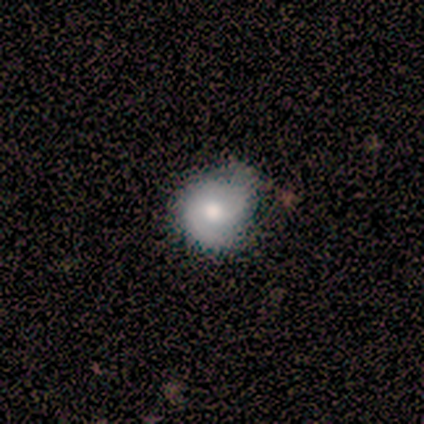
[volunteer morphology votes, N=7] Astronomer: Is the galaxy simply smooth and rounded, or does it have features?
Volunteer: smooth — 86%.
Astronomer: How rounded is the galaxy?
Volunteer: round — 67%.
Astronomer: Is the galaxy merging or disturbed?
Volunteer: none — 57%.